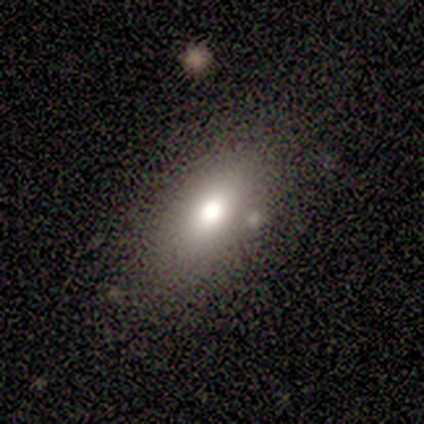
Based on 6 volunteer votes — Smooth or featured? star or artifact (50%)